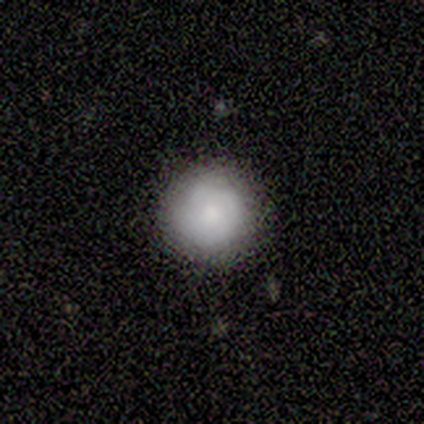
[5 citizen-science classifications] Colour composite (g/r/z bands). It shows a smooth galaxy with no disk features (40%, tied with featured or disk) that is round (100%). Merging: none (100%).